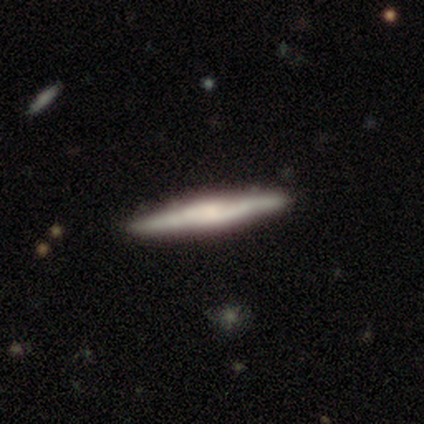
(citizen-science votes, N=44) A featured or disk galaxy (61%) viewed edge-on (93%) with a rounded central bulge (44%). Merging: none (88%).